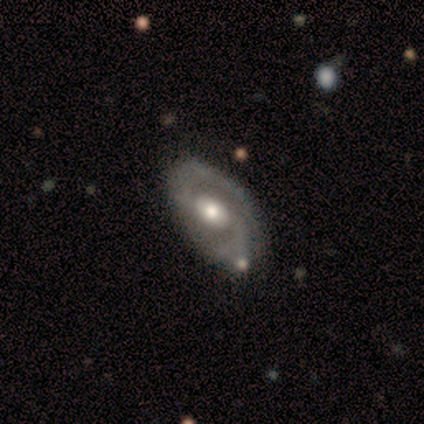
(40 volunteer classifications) Smooth or featured? 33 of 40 (82%) said featured or disk. Edge-on disk? 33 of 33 (100%) said no. Bar? 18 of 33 (55%) said no. Spiral arms? 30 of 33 (91%) said yes. Spiral winding? 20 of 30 (67%) said medium. Spiral arm count? 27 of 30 (90%) said 2. Bulge size? 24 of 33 (73%) said moderate. Merging? 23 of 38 (61%) said none.